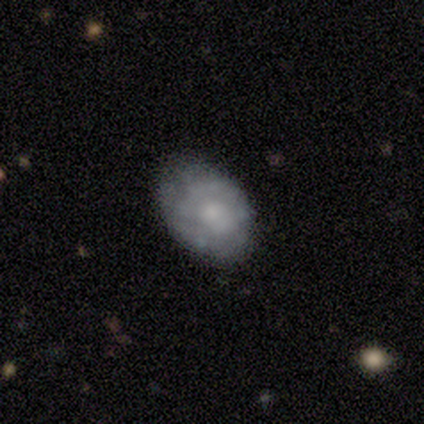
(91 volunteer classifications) Volunteers were most divided on "smooth or featured": featured or disk: 57%, smooth: 40%, star or artifact: 3%. More confident: bar — no (94%); edge-on disk — no (92%); spiral arms — no (75%); merging — none (74%); bulge size — small (50%).